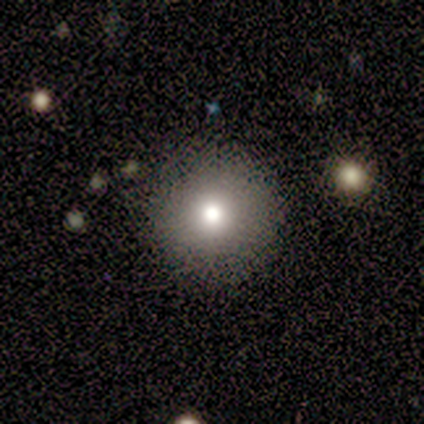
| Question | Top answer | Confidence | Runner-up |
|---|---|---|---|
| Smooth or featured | smooth | 75% | featured or disk (25%) |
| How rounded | round | 100% | — |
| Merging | none | 100% | — |